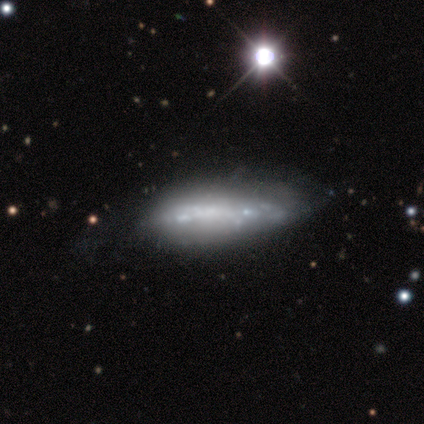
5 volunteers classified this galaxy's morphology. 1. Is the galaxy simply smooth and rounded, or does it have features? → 100% featured or disk, 0% smooth, 0% star or artifact.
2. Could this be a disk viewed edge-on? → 100% no, 0% yes.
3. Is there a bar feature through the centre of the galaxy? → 80% no, 20% strong, 0% weak.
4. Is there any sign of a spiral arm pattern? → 60% no, 40% yes.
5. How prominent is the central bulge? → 80% none, 20% small, 0% dominant, 0% large, 0% moderate.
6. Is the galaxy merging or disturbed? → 60% major disturbance, 20% none, 20% minor disturbance, 0% merger.